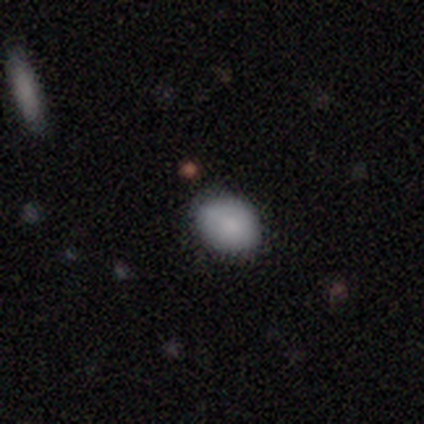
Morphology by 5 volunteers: Smooth or featured?
  - smooth: 60% *
  - star or artifact: 40%
  - featured or disk: 0%
How rounded?
  - in between: 67% *
  - round: 33%
  - cigar-shaped: 0%
Merging?
  - none: 67% *
  - minor disturbance: 33%
  - major disturbance: 0%
  - merger: 0%